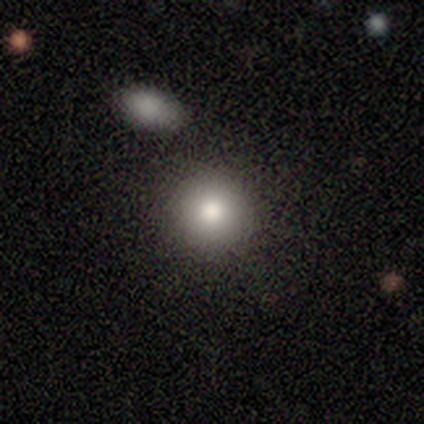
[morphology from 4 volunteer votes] Smooth or featured?
  - smooth: 75% *
  - featured or disk: 25%
  - star or artifact: 0%
How rounded?
  - round: 100% *
  - in between: 0%
  - cigar-shaped: 0%
Merging?
  - none: 100% *
  - minor disturbance: 0%
  - major disturbance: 0%
  - merger: 0%